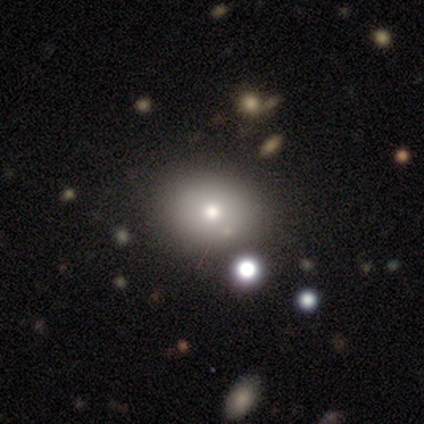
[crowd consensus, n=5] smooth-or-featured: smooth: 60% | featured or disk: 20% | star or artifact: 20%
  how-rounded: in between: 67% | round: 33% | cigar-shaped: 0%
  merging: none: 100% | minor disturbance: 0% | major disturbance: 0% | merger: 0%